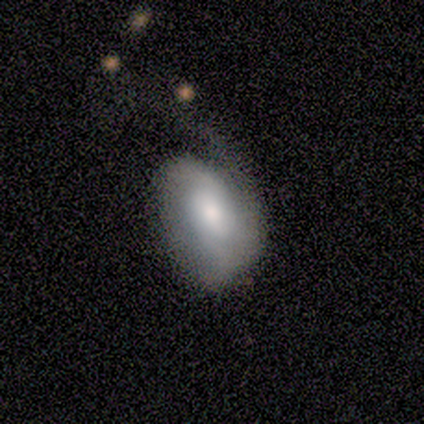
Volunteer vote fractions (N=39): smooth-or-featured: featured or disk: 59% | smooth: 41% | star or artifact: 0%
  disk-edge-on: no: 100% | yes: 0%
    bar: no: 83% | weak: 17% | strong: 0%
    has-spiral-arms: yes: 74% | no: 26%
      spiral-winding: medium: 35% (tied) | loose: 35% (tied) | tight: 29%
      spiral-arm-count: 1: 41% | 2: 35% | can't tell: 24% | 3: 0% | 4: 0% | more than 4: 0%
    bulge-size: moderate: 61% | large: 17% | small: 13% | none: 9% | dominant: 0%
  merging: major disturbance: 46% | minor disturbance: 26% | none: 10% | merger: 3%